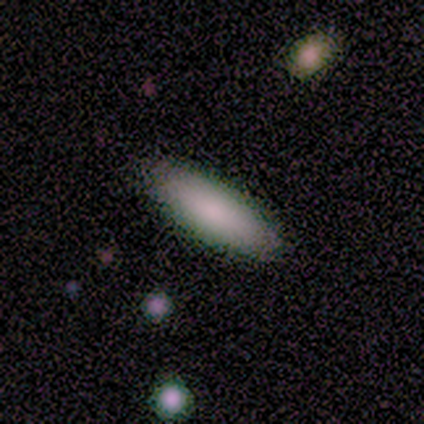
A smooth galaxy with no disk features (80%) that is in between round and cigar-shaped (100%). Merging: none (100%).